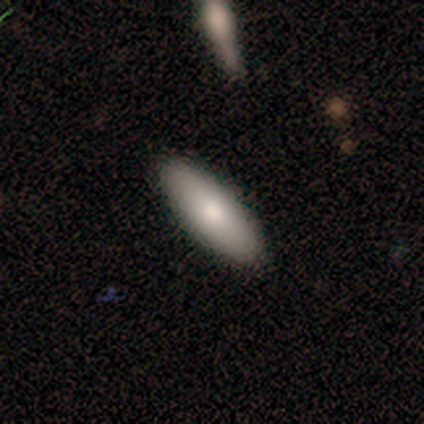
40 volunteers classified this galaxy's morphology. Smooth or featured?
  - smooth: 75% *
  - featured or disk: 18%
  - star or artifact: 8%
How rounded?
  - in between: 80% *
  - cigar-shaped: 20%
  - round: 0%
Merging?
  - none: 92% *
  - minor disturbance: 8%
  - major disturbance: 0%
  - merger: 0%